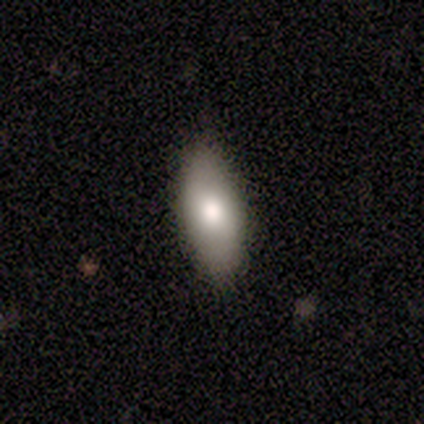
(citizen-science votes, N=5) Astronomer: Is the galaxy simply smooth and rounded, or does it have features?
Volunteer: smooth — 100%.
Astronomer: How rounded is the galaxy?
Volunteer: in between — 100%.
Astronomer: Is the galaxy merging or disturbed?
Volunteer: none — 80%.